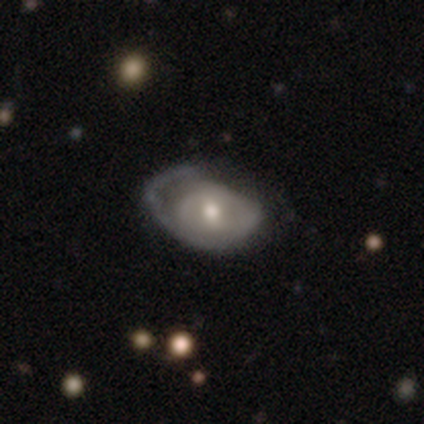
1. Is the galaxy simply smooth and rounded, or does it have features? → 75% smooth, 25% featured or disk, 0% star or artifact.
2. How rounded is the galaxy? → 67% in between, 33% round, 0% cigar-shaped.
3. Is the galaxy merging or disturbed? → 50% none, 25% minor disturbance, 25% major disturbance, 0% merger.